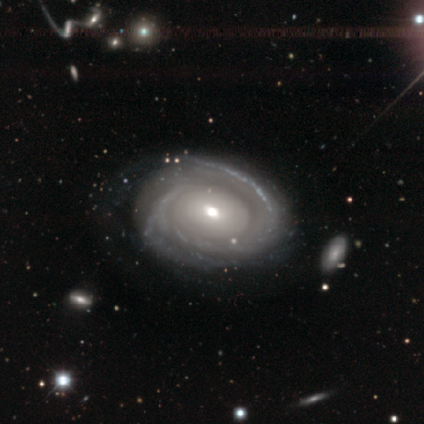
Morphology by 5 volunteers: smooth_or_featured: featured or disk (p=1.00)
disk_edge_on: no (p=1.00)
bar: no (p=0.60) [alt: strong p=0.20]
has_spiral_arms: yes (p=1.00)
spiral_winding: tight (p=1.00)
spiral_arm_count: can't tell (p=0.80) [alt: 3 p=0.20]
bulge_size: moderate (p=0.80) [alt: small p=0.20]
merging: none (p=0.80) [alt: major disturbance p=0.20]